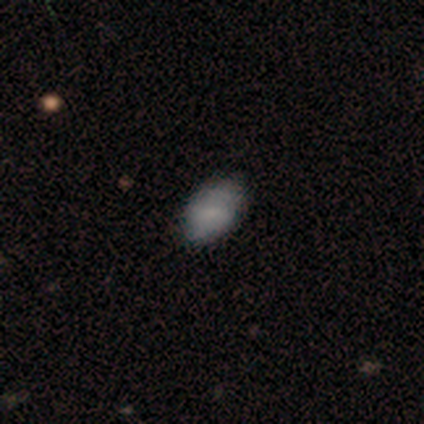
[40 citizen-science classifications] Q: Smooth or featured?
A: smooth (80%); runner-up: star or artifact (12%)
Q: How rounded?
A: in between (88%); runner-up: round (12%)
Q: Merging?
A: none (77%); runner-up: minor disturbance (20%)